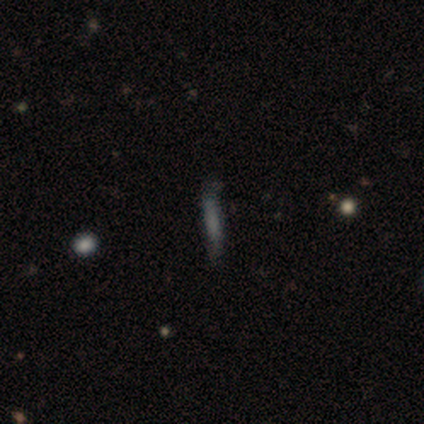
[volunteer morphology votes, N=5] Smooth or featured? smooth (80%)
How rounded? cigar-shaped (100%)
Merging? minor disturbance (60%)